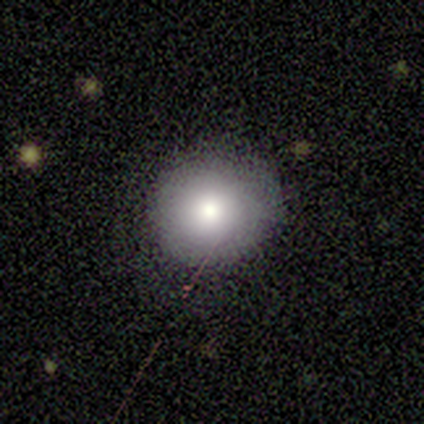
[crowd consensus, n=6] Smooth or featured? featured or disk (67%)
Edge-on disk? no (100%)
Bar? no (75%)
Spiral arms? no (100%)
Bulge size? small (50%)
Merging? none (80%)